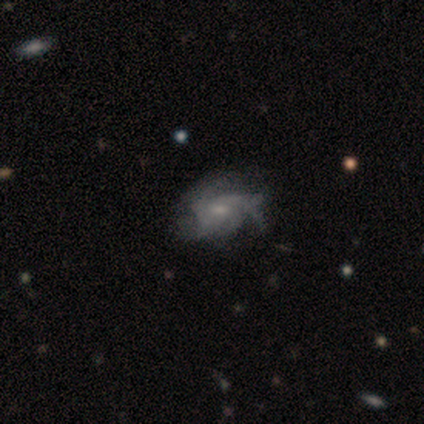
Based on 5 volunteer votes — Smooth or featured?
  - featured or disk: 60% *
  - smooth: 40%
  - star or artifact: 0%
Edge-on disk?
  - no: 100% *
  - yes: 0%
Bar?
  - no: 67% *
  - weak: 33%
  - strong: 0%
Spiral arms?
  - yes: 100% *
  - no: 0%
Spiral winding?
  - tight: 33% * (tied)
  - medium: 33% * (tied)
  - loose: 33% * (tied)
Spiral arm count?
  - can't tell: 67% *
  - 2: 33%
  - 1: 0%
  - 3: 0%
  - 4: 0%
  - more than 4: 0%
Bulge size?
  - small: 67% *
  - none: 33%
  - dominant: 0%
  - large: 0%
  - moderate: 0%
Merging?
  - none: 40% * (tied)
  - minor disturbance: 40% * (tied)
  - major disturbance: 20%
  - merger: 0%